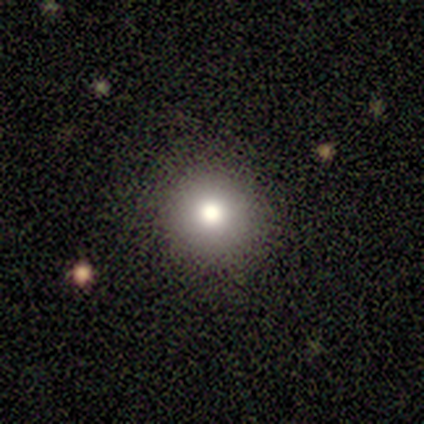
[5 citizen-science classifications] A smooth galaxy with no disk features (80%) that is round (100%).

Vote fractions:
- Smooth or featured? smooth: 80% / featured or disk: 20% / star or artifact: 0%
- How rounded? round: 100% / in between: 0% / cigar-shaped: 0%
- Merging? none: 100% / minor disturbance: 0% / major disturbance: 0% / merger: 0%